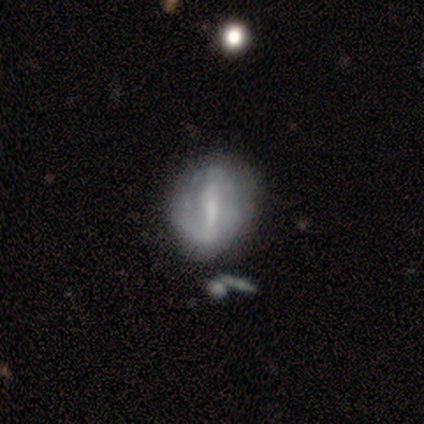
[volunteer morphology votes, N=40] A featured or disk galaxy (85%) with a strong bar (61%), 2 (33%, tied with can't tell) tight (39%) spiral arms (55%) and a small central bulge (58%). Merging: none (38%).